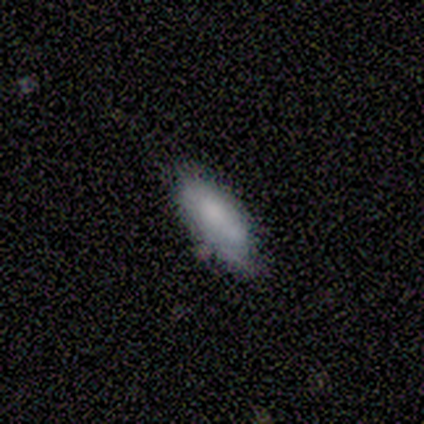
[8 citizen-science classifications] A smooth galaxy with no disk features (100%) that is in between round and cigar-shaped (88%). Merging: none (88%).